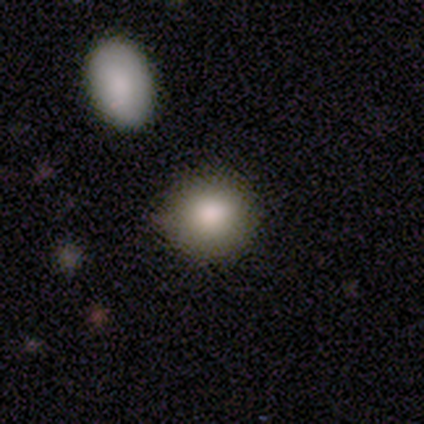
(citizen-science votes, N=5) This appears to be a smooth galaxy with no disk features (80%) that is round (100%). Merging: none (100%).